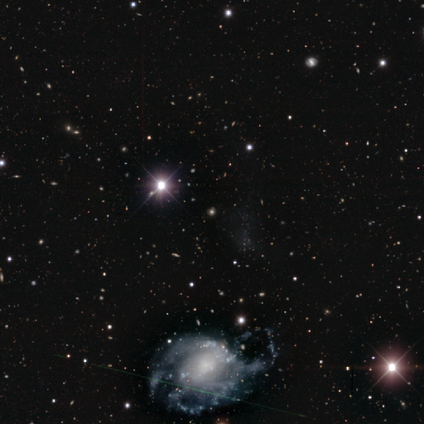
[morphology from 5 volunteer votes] This is clearly a featured or disk galaxy (80%). It is clearly not viewed edge-on (100%). Bar: possibly no (50%). Spiral arm pattern: likely yes (75%). Spiral arm count: likely can't tell (67%). Spiral winding: likely medium (67%). Central bulge: possibly small (50%). Merging: likely major disturbance (75%).